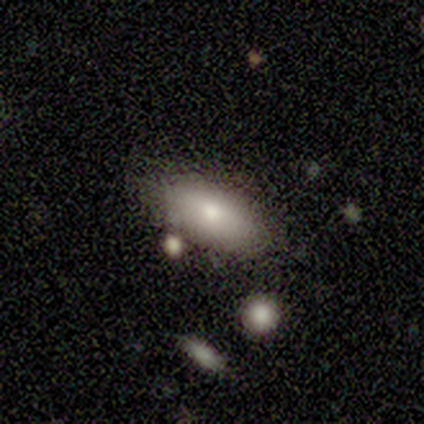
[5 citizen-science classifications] Smooth or featured: smooth — 80% (featured or disk — 20%)
How rounded: in between — 50% (tied with cigar-shaped — 50%)
Merging: minor disturbance — 60% (none — 40%)